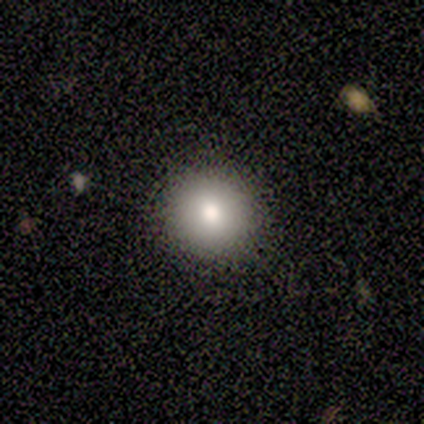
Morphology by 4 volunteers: A smooth galaxy with no disk features (75%) that is round (100%).

Vote fractions:
- Smooth or featured? smooth: 75% / star or artifact: 25% / featured or disk: 0%
- How rounded? round: 100% / in between: 0% / cigar-shaped: 0%
- Merging? none: 100% / minor disturbance: 0% / major disturbance: 0% / merger: 0%